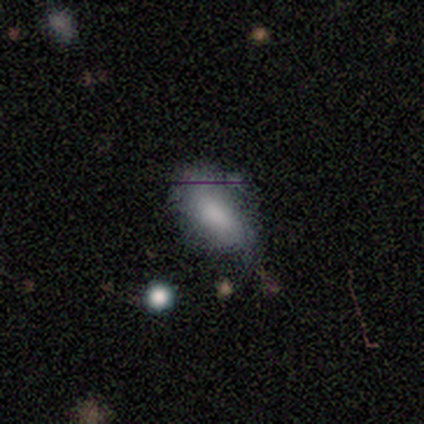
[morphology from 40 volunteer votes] Overall: smooth (72%). How rounded: in between (93%). Merging: none (39%; minor disturbance 22%).